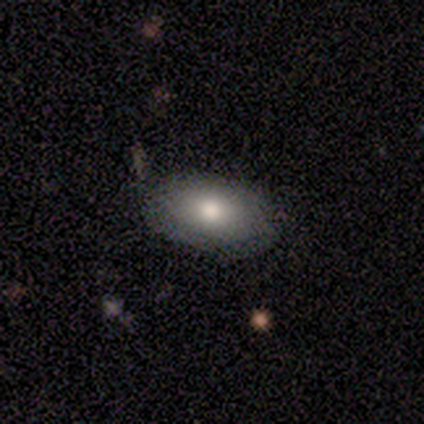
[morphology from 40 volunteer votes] This is clearly a smooth galaxy (82%). How rounded: clearly in between (91%). Merging: clearly none (84%).